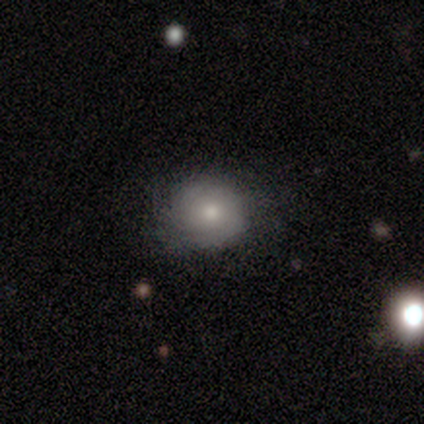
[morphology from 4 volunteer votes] smooth-or-featured: smooth: 100% | featured or disk: 0% | star or artifact: 0%
  how-rounded: round: 75% | in between: 25% | cigar-shaped: 0%
  merging: none: 75% | major disturbance: 25% | minor disturbance: 0% | merger: 0%